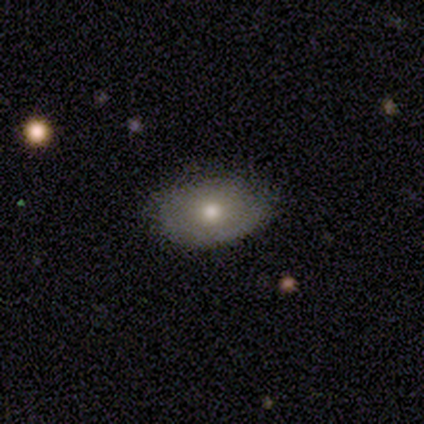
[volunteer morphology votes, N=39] Smooth or featured: smooth — 62% (featured or disk — 26%)
How rounded: in between — 88% (round — 8%)
Merging: none — 91% (minor disturbance — 9%)